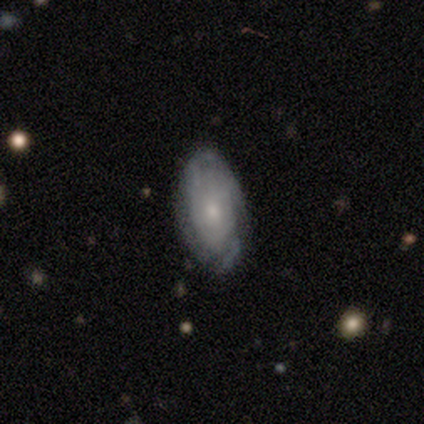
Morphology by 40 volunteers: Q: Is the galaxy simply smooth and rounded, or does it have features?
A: featured or disk — 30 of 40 (75%).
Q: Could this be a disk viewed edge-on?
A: no — 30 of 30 (100%).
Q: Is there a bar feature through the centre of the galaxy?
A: no — 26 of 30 (87%).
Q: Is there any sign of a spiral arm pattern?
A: yes — 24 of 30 (80%).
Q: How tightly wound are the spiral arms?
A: tight — 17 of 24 (71%).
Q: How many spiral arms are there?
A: can't tell — 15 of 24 (62%).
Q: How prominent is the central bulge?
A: small — 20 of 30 (67%).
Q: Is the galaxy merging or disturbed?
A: none — 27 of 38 (71%).